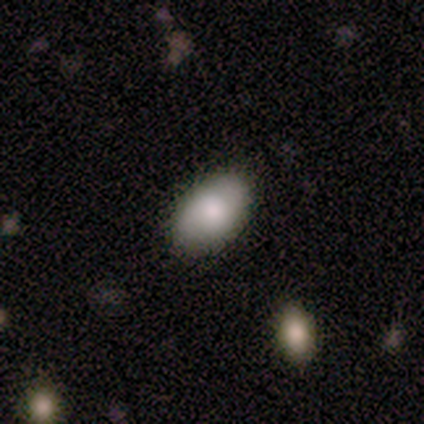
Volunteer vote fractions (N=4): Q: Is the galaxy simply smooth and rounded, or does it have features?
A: smooth — 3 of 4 (75%).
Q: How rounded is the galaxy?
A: in between — 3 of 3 (100%).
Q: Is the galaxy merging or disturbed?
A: none — 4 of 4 (100%).